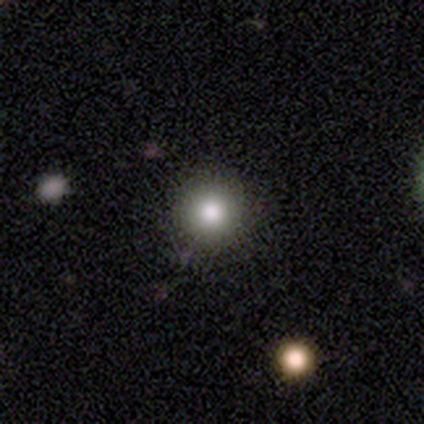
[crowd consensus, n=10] smooth_or_featured: smooth (p=0.80) [alt: featured or disk p=0.20]
how_rounded: round (p=1.00)
merging: none (p=0.80) [alt: minor disturbance p=0.10]